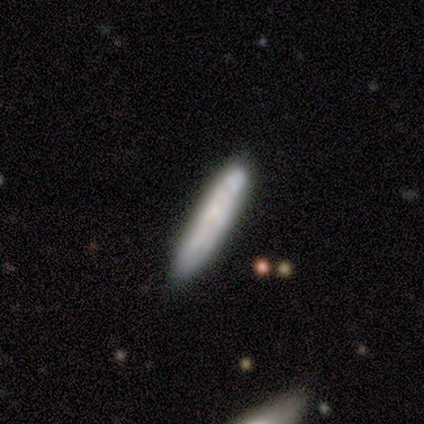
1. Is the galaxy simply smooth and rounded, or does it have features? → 59% smooth, 41% featured or disk, 0% star or artifact.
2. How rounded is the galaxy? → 100% cigar-shaped, 0% round, 0% in between.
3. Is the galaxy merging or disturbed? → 78% none, 11% major disturbance, 8% minor disturbance, 3% merger.